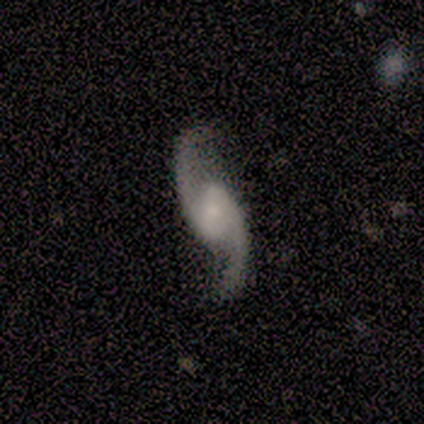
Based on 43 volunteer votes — This appears to be a featured or disk galaxy (98%) with no bar (54%), 2 (97%) loose (74%) spiral arms (95%) and a small central bulge (41%). Merging: none (74%).